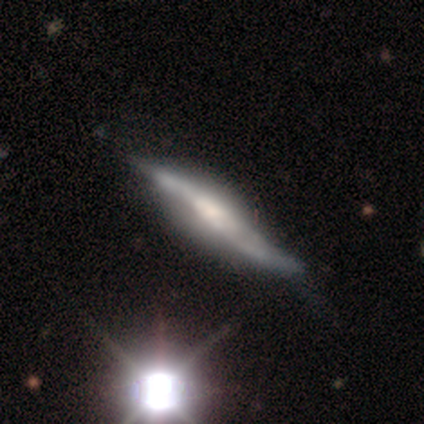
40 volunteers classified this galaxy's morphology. Smooth or featured?
  - featured or disk: 70% *
  - star or artifact: 18%
  - smooth: 12%
Edge-on disk?
  - yes: 79% *
  - no: 21%
Edge-on bulge?
  - rounded: 59% *
  - none: 32%
  - boxy: 9%
Merging?
  - minor disturbance: 39% *
  - none: 24%
  - major disturbance: 12%
  - merger: 3%